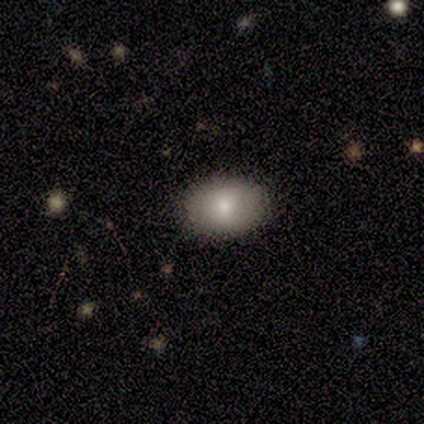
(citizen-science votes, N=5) This is likely a smooth galaxy (60%). How rounded: likely in between (67%). Merging: clearly none (100%).